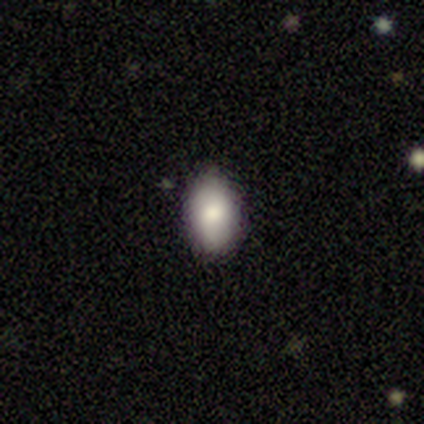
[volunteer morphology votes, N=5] Smooth or featured?
  - smooth: 100% *
  - featured or disk: 0%
  - star or artifact: 0%
How rounded?
  - in between: 80% *
  - round: 20%
  - cigar-shaped: 0%
Merging?
  - none: 80% *
  - minor disturbance: 20%
  - major disturbance: 0%
  - merger: 0%